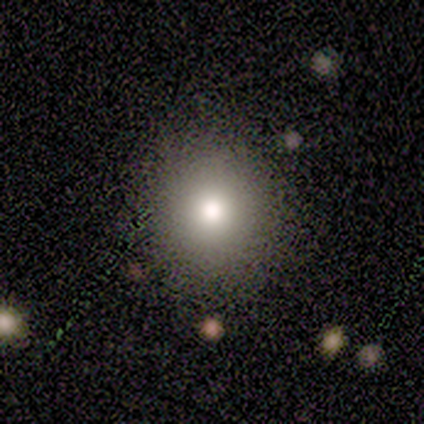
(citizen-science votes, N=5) Overall: smooth (80%). How rounded: round (100%). Merging: none (100%).